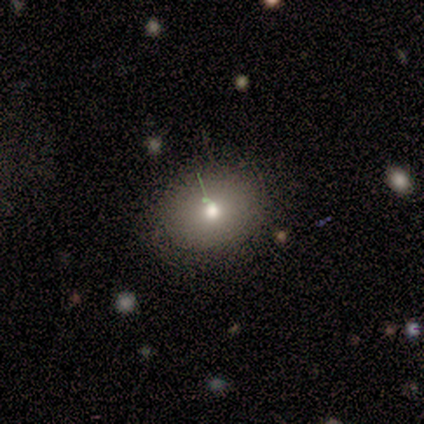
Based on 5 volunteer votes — A featured or disk galaxy (60%) with no bar (100%), tight (100%) spiral arms (50%, tied with no) and a moderate central bulge (50%, tied with small).

Vote fractions:
- Smooth or featured? featured or disk: 60% / smooth: 40% / star or artifact: 0%
- Edge-on disk? no: 67% / yes: 33%
- Bar? no: 100% / strong: 0% / weak: 0%
- Spiral arms? yes: 50% (tied) / no: 50% (tied)
- Spiral winding? tight: 100% / medium: 0% / loose: 0%
- Spiral arm count? can't tell: 100% / 1: 0% / 2: 0% / 3: 0% / 4: 0% / more than 4: 0%
- Bulge size? moderate: 50% (tied) / small: 50% (tied) / dominant: 0% / large: 0% / none: 0%
- Merging? minor disturbance: 60% / none: 20% / major disturbance: 20% / merger: 0%